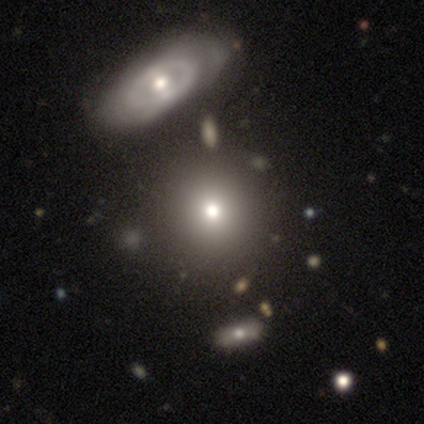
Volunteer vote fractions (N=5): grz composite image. It shows a smooth galaxy with no disk features (80%) that is round (75%). Merging: none (50%, tied with minor disturbance).